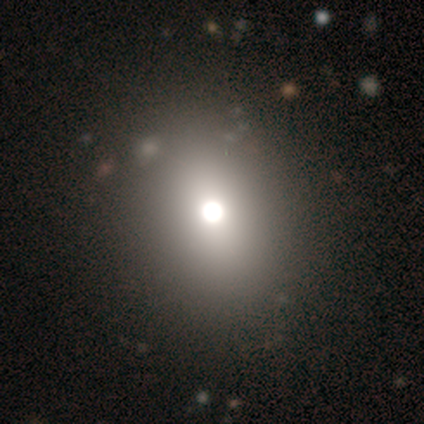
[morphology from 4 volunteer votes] A smooth galaxy with no disk features (50%) that is round (100%). Merging: none (100%).